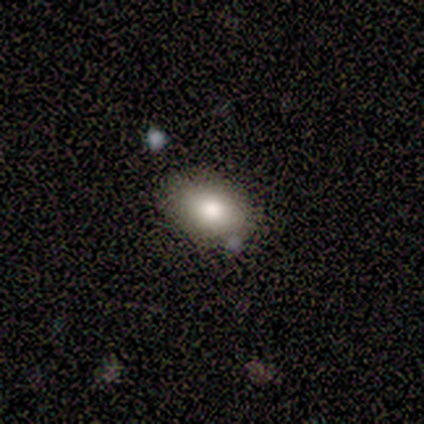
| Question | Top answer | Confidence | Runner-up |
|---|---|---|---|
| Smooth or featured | smooth | 80% | featured or disk (20%) |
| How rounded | in between | 100% | — |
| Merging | none | 60% | minor disturbance (20%) |